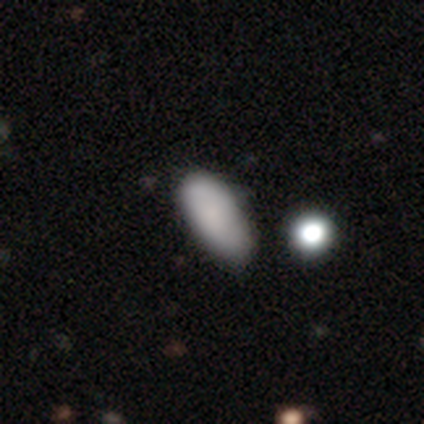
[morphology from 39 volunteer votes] This appears to be a smooth galaxy with no disk features (77%) that is in between round and cigar-shaped (83%). Merging: minor disturbance (32%).